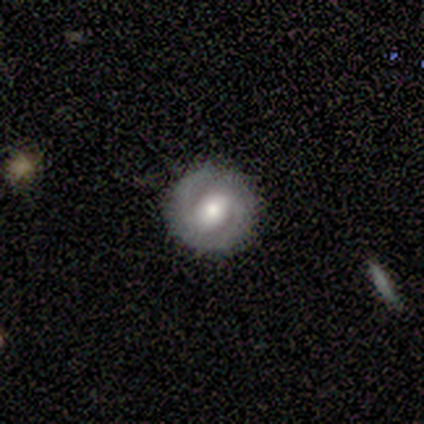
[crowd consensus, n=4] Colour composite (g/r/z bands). It shows a featured or disk galaxy (100%) with a strong bar (50%, tied with weak), 2 (100%) tight (50%, tied with medium) spiral arms (50%, tied with no) and a moderate central bulge (75%). Merging: none (100%).